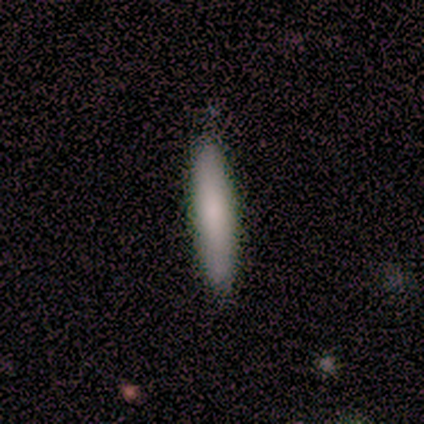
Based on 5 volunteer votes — Smooth or featured: smooth — 100%
How rounded: cigar-shaped — 100%
Merging: none — 80% (minor disturbance — 20%)